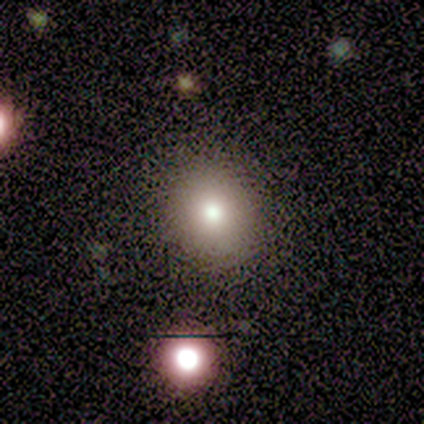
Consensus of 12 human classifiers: A smooth galaxy with no disk features (50%) that is round (83%).

Vote fractions:
- Smooth or featured? smooth: 50% / star or artifact: 33% / featured or disk: 17%
- How rounded? round: 83% / in between: 17% / cigar-shaped: 0%
- Merging? none: 100% / minor disturbance: 0% / major disturbance: 0% / merger: 0%